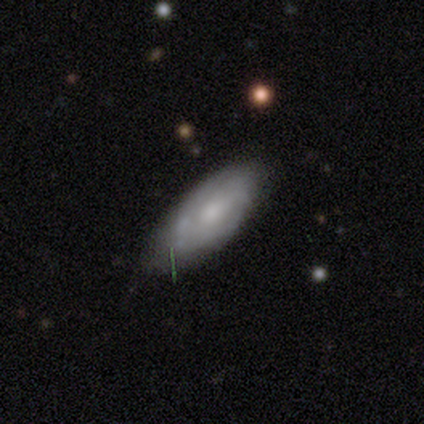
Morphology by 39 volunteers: featured or disk 51%, smooth 41%, star or artifact 8%. Down the decision tree: edge-on disk — no (95%); bar — no (84%); spiral arms — no (58%); bulge size — small (42%); merging — none (64%).